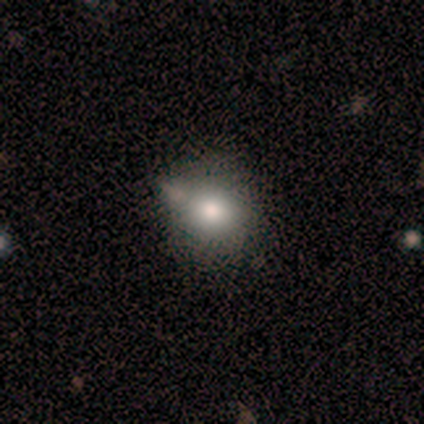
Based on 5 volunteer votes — Smooth or featured?
  - smooth: 80% *
  - featured or disk: 20%
  - star or artifact: 0%
How rounded?
  - round: 75% *
  - in between: 25%
  - cigar-shaped: 0%
Merging?
  - none: 40% * (tied)
  - merger: 40% * (tied)
  - minor disturbance: 20%
  - major disturbance: 0%